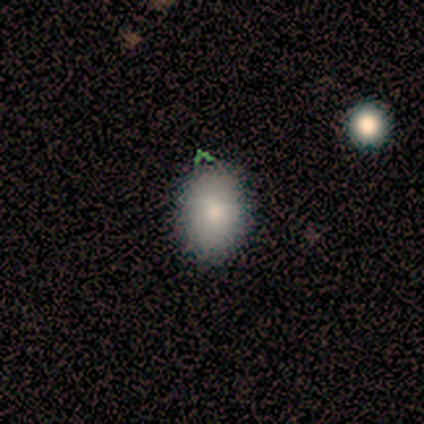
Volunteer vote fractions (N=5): Smooth or featured?
  - smooth: 80% *
  - star or artifact: 20%
  - featured or disk: 0%
How rounded?
  - in between: 75% *
  - round: 25%
  - cigar-shaped: 0%
Merging?
  - none: 100% *
  - minor disturbance: 0%
  - major disturbance: 0%
  - merger: 0%